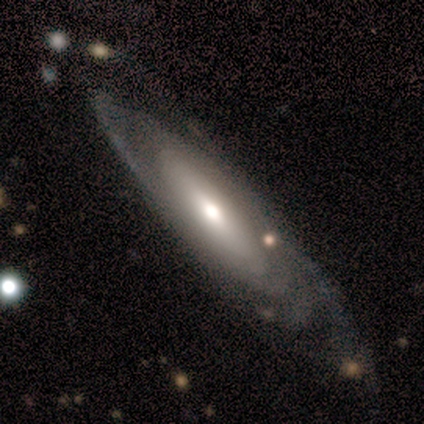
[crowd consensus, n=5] Smooth or featured? featured or disk (80%)
Edge-on disk? yes (50%, tied with no)
Edge-on bulge? rounded (100%)
Merging? none (80%)